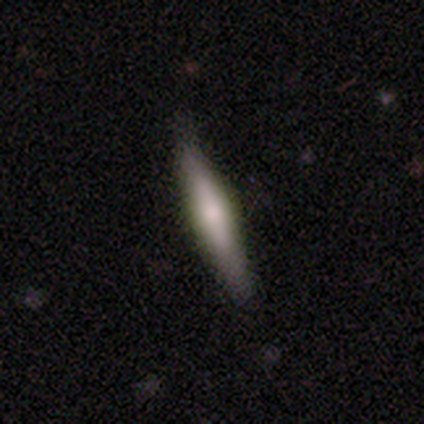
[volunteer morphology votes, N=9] smooth_or_featured: featured or disk (p=0.44) [alt: smooth p=0.33]
disk_edge_on: yes (p=1.00)
edge_on_bulge: rounded (p=0.50) [alt: boxy p=0.25]
merging: none (p=0.86) [alt: minor disturbance p=0.14]